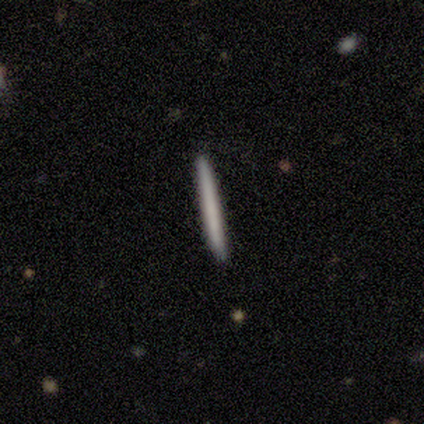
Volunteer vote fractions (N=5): Overall: smooth (60%; featured or disk 40%). How rounded: cigar-shaped (100%). Merging: none (100%).